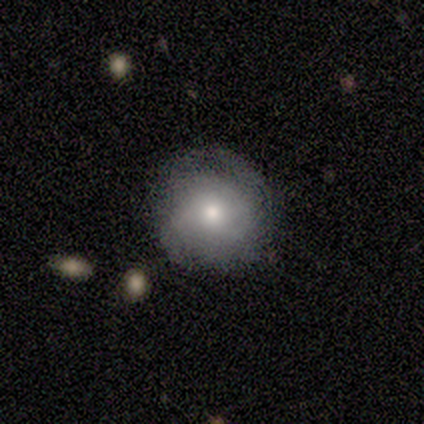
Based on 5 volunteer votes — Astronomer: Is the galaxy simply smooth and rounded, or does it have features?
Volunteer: featured or disk — 60% (runner-up: smooth, 40%).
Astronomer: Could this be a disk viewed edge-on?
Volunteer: no — 100%.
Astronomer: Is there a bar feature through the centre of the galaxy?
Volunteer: no — 67%.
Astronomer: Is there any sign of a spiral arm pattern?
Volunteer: no — 100%.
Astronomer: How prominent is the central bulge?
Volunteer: moderate — 100%.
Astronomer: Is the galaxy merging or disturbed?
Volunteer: none — 80%.